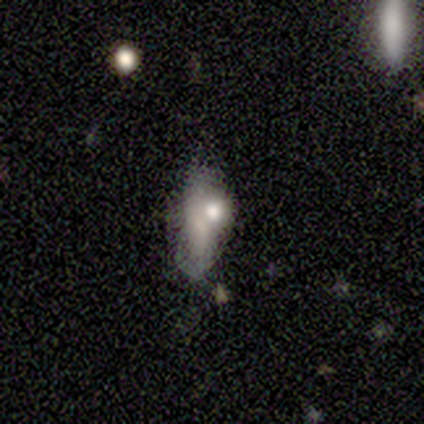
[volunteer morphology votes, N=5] Volunteers were most divided on "bulge size" (3-way tie): moderate: 33%, small: 33%, none: 33%, dominant: 0%, large: 0%. More confident: edge-on disk — no (100%); bar — no (100%); spiral arms — no (100%); merging — major disturbance (67%); smooth or featured — featured or disk (60%).